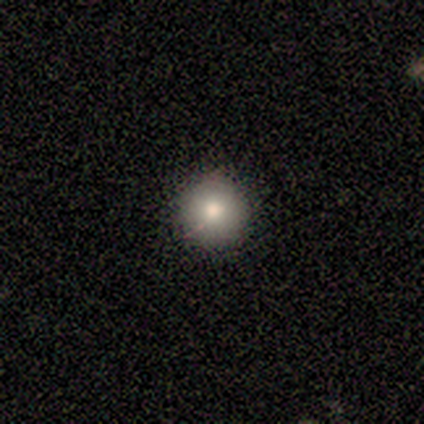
smooth 80%, featured or disk 20%, star or artifact 0%. Down the decision tree: how rounded — round (100%); merging — none (80%).